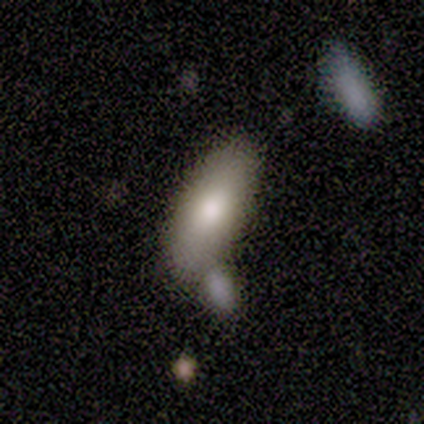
A featured or disk galaxy (67%) viewed edge-on (100%) with a rounded central bulge (100%).

Vote fractions:
- Smooth or featured? featured or disk: 67% / smooth: 33% / star or artifact: 0%
- Edge-on disk? yes: 100% / no: 0%
- Edge-on bulge? rounded: 100% / boxy: 0% / none: 0%
- Merging? merger: 67% / none: 33% / minor disturbance: 0% / major disturbance: 0%